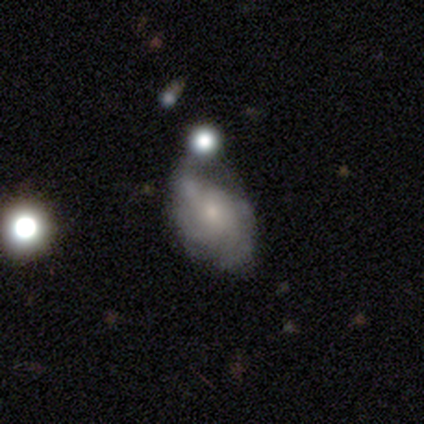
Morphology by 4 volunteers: Q: Smooth or featured?
A: featured or disk (100%)
Q: Edge-on disk?
A: no (100%)
Q: Bar?
A: no (75%); runner-up: weak (25%)
Q: Spiral arms?
A: yes (100%)
Q: Spiral winding?
A: tight (50%); tied with: medium (50%)
Q: Spiral arm count?
A: can't tell (50%); runner-up: 2 (25%)
Q: Bulge size?
A: small (75%); runner-up: none (25%)
Q: Merging?
A: minor disturbance (75%); runner-up: merger (25%)